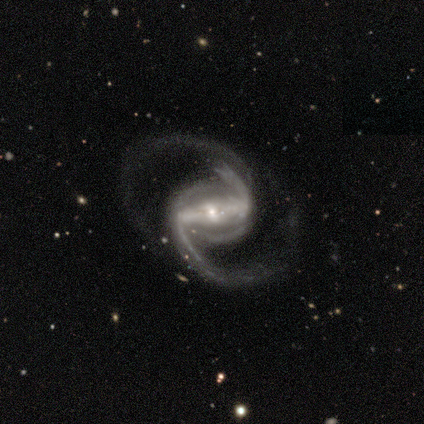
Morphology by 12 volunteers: Q: Smooth or featured?
A: featured or disk (100%)
Q: Edge-on disk?
A: no (100%)
Q: Bar?
A: strong (92%); runner-up: weak (8%)
Q: Spiral arms?
A: yes (100%)
Q: Spiral winding?
A: medium (50%); runner-up: loose (42%)
Q: Spiral arm count?
A: 2 (100%)
Q: Bulge size?
A: small (75%); runner-up: moderate (17%)
Q: Merging?
A: none (92%); runner-up: minor disturbance (8%)